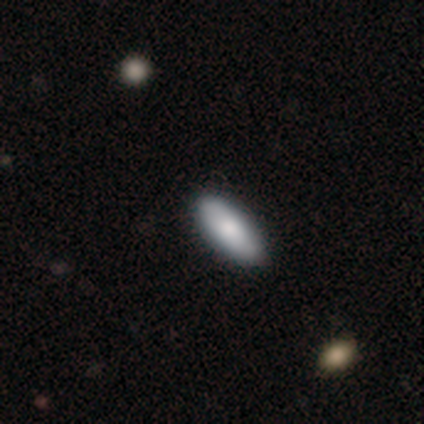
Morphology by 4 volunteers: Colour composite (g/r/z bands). It shows a smooth galaxy with no disk features (75%) that is in between round and cigar-shaped (100%). Merging: none (100%).